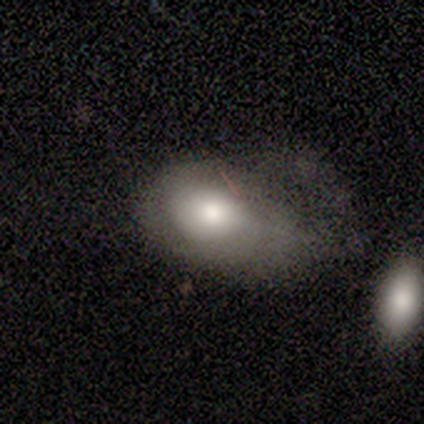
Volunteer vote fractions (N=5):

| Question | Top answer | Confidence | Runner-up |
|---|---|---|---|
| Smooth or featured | featured or disk | 60% | smooth (40%) |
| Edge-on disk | no | 100% | — |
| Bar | no | 100% | — |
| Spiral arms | no | 100% | — |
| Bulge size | moderate | 67% | large (33%) |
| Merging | minor disturbance | 60% | major disturbance (40%) |